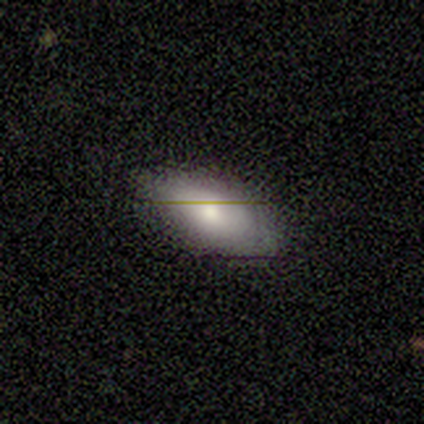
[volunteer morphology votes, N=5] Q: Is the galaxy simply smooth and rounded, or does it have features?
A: smooth — 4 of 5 (80%).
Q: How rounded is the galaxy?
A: in between — 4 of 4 (100%).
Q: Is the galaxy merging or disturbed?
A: none — 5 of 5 (100%).